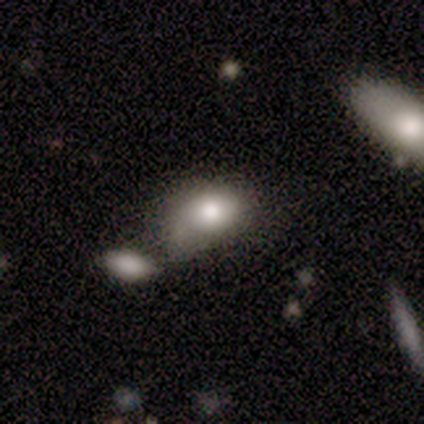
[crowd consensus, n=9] A smooth galaxy with no disk features (78%) that is in between round and cigar-shaped (57%).

Vote fractions:
- Smooth or featured? smooth: 78% / featured or disk: 22% / star or artifact: 0%
- How rounded? in between: 57% / round: 43% / cigar-shaped: 0%
- Merging? minor disturbance: 67% / none: 33% / major disturbance: 0% / merger: 0%